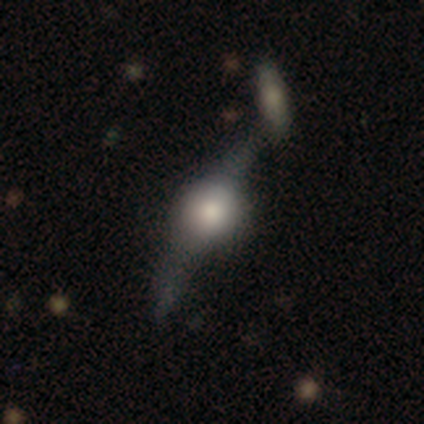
A featured or disk galaxy (60%) viewed edge-on (67%) with a rounded central bulge (100%). Merging: none (80%).